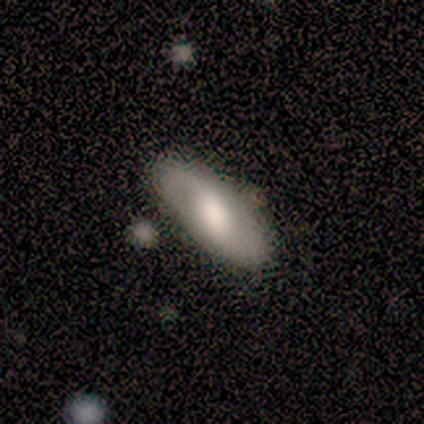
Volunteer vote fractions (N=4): star or artifact 50%, smooth 25%, featured or disk 25%.